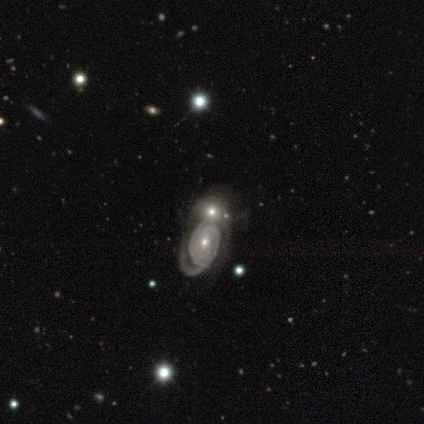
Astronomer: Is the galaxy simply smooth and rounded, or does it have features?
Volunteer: featured or disk — 83%.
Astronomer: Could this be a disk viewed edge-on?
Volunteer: no — 98%.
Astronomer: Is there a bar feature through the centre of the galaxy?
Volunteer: no — 83%.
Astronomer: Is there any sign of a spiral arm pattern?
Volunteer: yes — 85%.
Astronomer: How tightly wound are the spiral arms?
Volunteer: tight — 75%.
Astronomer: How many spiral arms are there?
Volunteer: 2 — 48% (runner-up: can't tell, 29%).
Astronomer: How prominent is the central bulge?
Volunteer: moderate — 47%, tied with small at 47%.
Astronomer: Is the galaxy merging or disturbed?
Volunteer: merger — 53%.